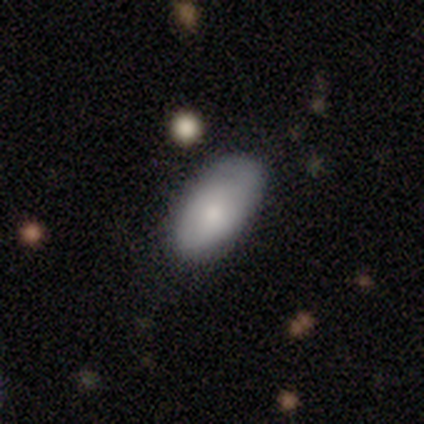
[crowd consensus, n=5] Q: Smooth or featured?
A: smooth (80%); runner-up: featured or disk (20%)
Q: How rounded?
A: in between (100%)
Q: Merging?
A: none (60%); runner-up: minor disturbance (20%)